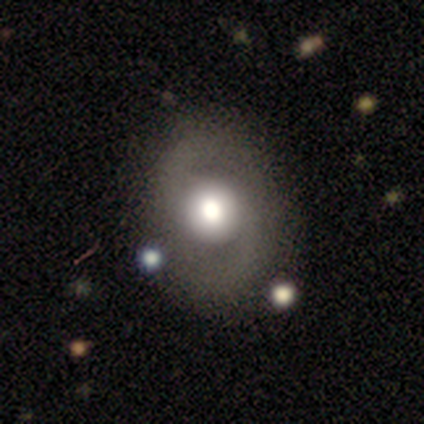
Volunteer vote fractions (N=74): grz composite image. It shows a featured or disk galaxy (66%) with no bar (85%), 2 (92%) medium (58%) spiral arms (77%) and a large central bulge (57%). Merging: none (80%).